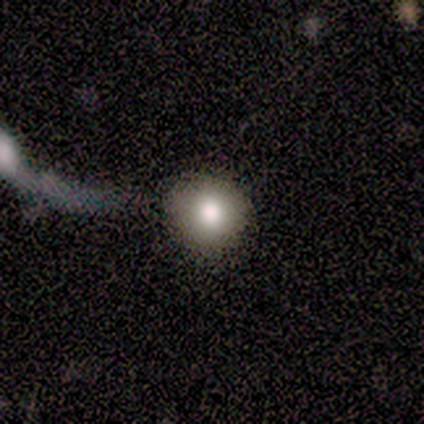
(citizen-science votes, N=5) A smooth galaxy with no disk features (80%) that is round (100%).

Vote fractions:
- Smooth or featured? smooth: 80% / featured or disk: 20% / star or artifact: 0%
- How rounded? round: 100% / in between: 0% / cigar-shaped: 0%
- Merging? none: 60% / major disturbance: 20% / merger: 20% / minor disturbance: 0%